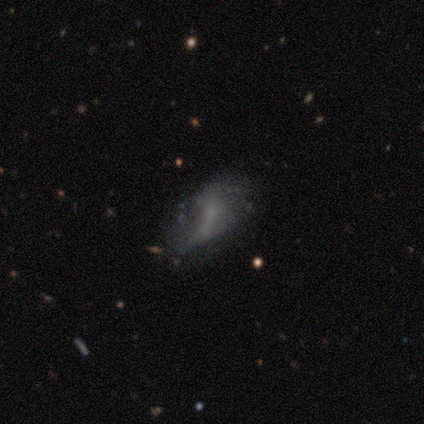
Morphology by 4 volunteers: A smooth galaxy with no disk features (50%) that is in between round and cigar-shaped (100%).

Vote fractions:
- Smooth or featured? smooth: 50% / featured or disk: 25% / star or artifact: 25%
- How rounded? in between: 100% / round: 0% / cigar-shaped: 0%
- Merging? none: 33% (tied) / minor disturbance: 33% (tied) / major disturbance: 33% (tied) / merger: 0%